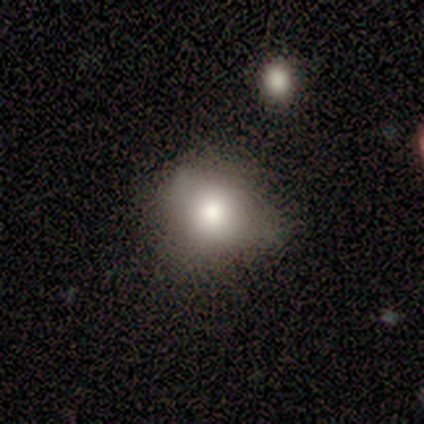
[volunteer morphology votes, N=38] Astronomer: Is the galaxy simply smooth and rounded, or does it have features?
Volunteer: smooth — 74%.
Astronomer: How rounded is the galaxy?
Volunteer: round — 75%.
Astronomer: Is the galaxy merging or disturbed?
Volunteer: none — 58%.